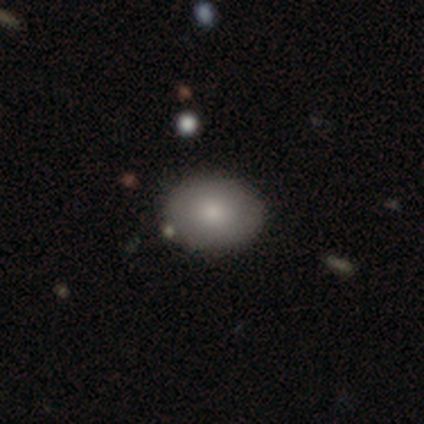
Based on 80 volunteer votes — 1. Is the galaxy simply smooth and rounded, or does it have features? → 80% smooth, 14% featured or disk, 6% star or artifact.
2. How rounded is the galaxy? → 62% in between, 38% round, 0% cigar-shaped.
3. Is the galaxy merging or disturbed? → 40% none, 9% merger, 4% minor disturbance, 0% major disturbance.